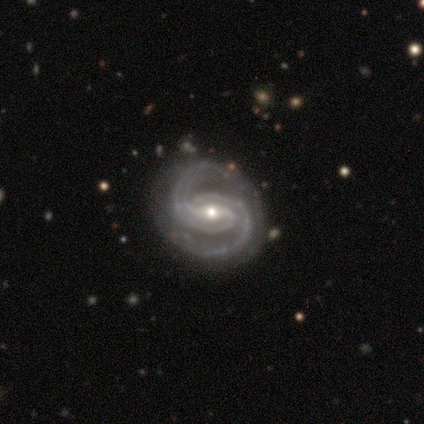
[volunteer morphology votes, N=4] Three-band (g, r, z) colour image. It shows a featured or disk galaxy (75%) with a weak bar (67%), 2 (67%) medium (67%) spiral arms (100%) and a small central bulge (100%). Merging: none (67%).